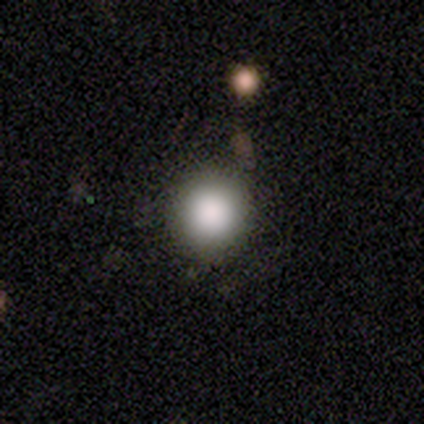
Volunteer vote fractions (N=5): Smooth or featured?
  - smooth: 100% *
  - featured or disk: 0%
  - star or artifact: 0%
How rounded?
  - round: 100% *
  - in between: 0%
  - cigar-shaped: 0%
Merging?
  - none: 80% *
  - minor disturbance: 20%
  - major disturbance: 0%
  - merger: 0%